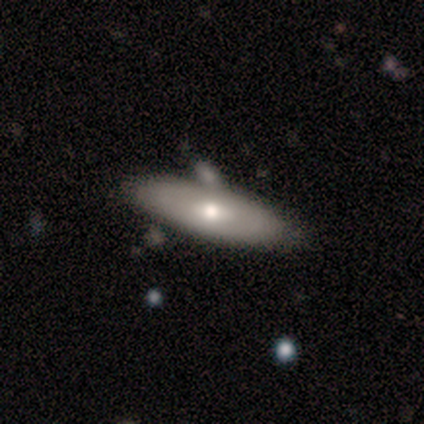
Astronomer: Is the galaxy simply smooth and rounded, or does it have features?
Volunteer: smooth — 50%, tied with featured or disk at 50%.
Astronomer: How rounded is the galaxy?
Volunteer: cigar-shaped — 100%.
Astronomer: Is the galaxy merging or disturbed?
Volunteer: none — 50%, tied with minor disturbance at 50%.